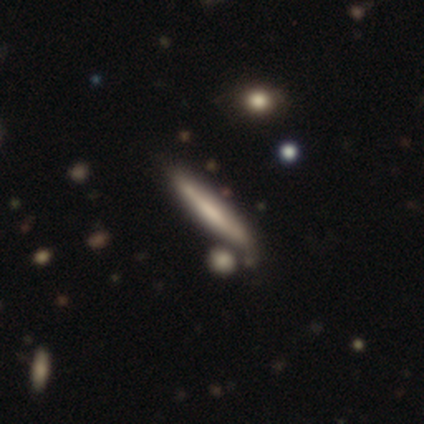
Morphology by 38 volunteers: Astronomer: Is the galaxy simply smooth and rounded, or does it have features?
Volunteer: smooth — 47% (runner-up: featured or disk, 45%).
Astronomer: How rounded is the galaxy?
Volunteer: cigar-shaped — 94%.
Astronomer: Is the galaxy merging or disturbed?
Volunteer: none — 69%.